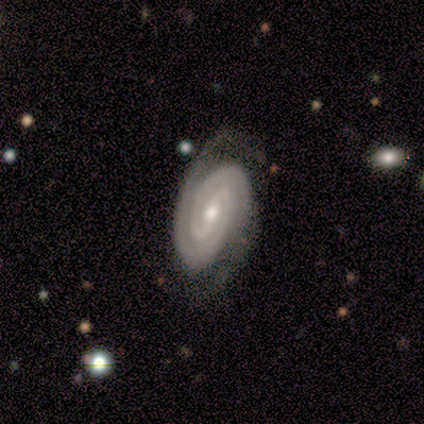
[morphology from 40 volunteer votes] smooth_or_featured: featured or disk (p=0.95) [alt: smooth p=0.03]
disk_edge_on: no (p=0.97) [alt: yes p=0.03]
bar: weak (p=0.46) [alt: strong p=0.27]
has_spiral_arms: yes (p=1.00)
spiral_winding: tight (p=0.89) [alt: medium p=0.11]
spiral_arm_count: 2 (p=0.84) [alt: 3 p=0.08]
bulge_size: moderate (p=0.70) [alt: small p=0.24]
merging: none (p=0.67) [alt: minor disturbance p=0.26]